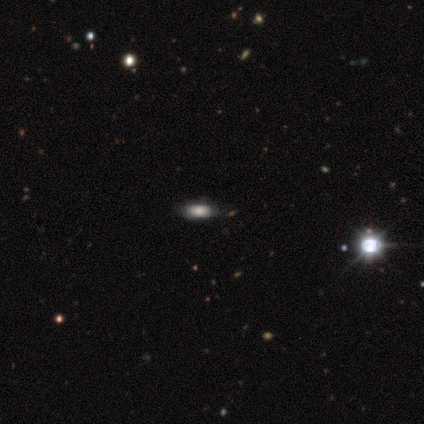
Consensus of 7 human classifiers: Volunteers were most divided on "how rounded": in between: 60%, round: 20%, cigar-shaped: 20%. More confident: merging — none (83%); smooth or featured — smooth (71%).